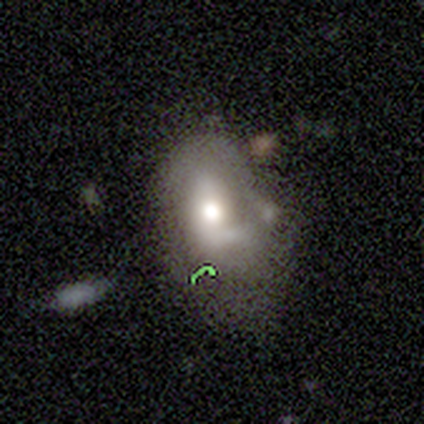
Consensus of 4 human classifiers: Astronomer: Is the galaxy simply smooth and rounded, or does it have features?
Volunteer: featured or disk — 75%.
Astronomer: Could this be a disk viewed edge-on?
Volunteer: no — 100%.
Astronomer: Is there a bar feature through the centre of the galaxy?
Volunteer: no — 67%.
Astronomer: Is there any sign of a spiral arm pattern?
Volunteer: no — 100%.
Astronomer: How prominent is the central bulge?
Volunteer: moderate — 67%.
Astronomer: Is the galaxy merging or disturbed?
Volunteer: none — 33%, tied with minor disturbance and major disturbance at 33%.